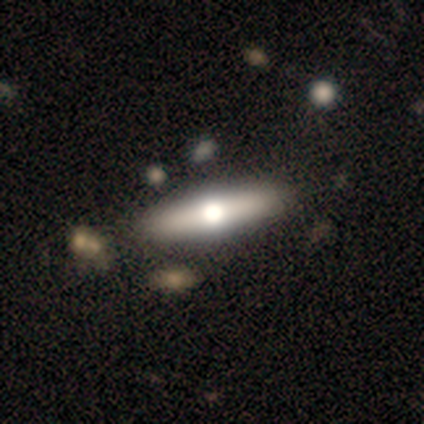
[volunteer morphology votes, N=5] smooth_or_featured: featured or disk (p=0.80) [alt: star or artifact p=0.20]
disk_edge_on: yes (p=0.50) [tied with: no p=0.50]
edge_on_bulge: rounded (p=1.00)
merging: none (p=1.00)